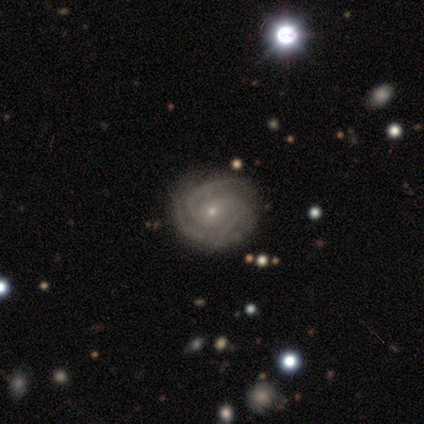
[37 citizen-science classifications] A featured or disk galaxy (86%) with no bar (83%), 3 (62%) tight (79%) spiral arms (97%) and a small central bulge (83%). Merging: none (86%).